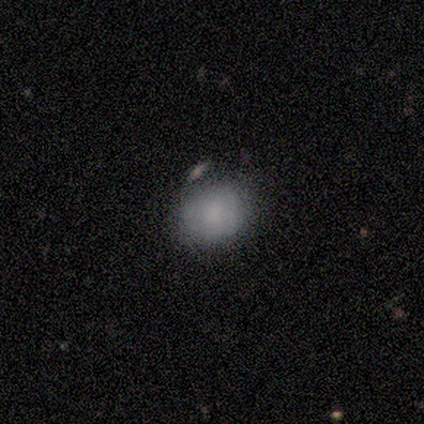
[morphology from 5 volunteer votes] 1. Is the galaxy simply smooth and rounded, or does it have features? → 100% smooth, 0% featured or disk, 0% star or artifact.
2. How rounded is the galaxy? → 100% round, 0% in between, 0% cigar-shaped.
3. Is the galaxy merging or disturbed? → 100% none, 0% minor disturbance, 0% major disturbance, 0% merger.